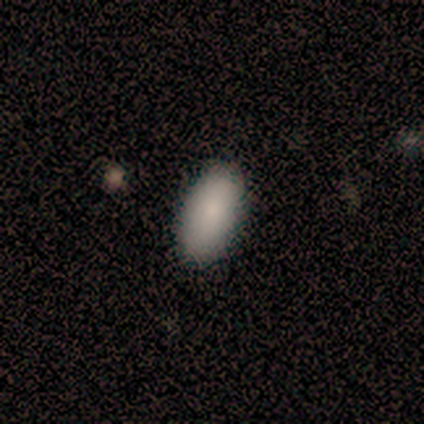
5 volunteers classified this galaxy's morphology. A smooth galaxy with no disk features (80%) that is in between round and cigar-shaped (75%).

Vote fractions:
- Smooth or featured? smooth: 80% / featured or disk: 20% / star or artifact: 0%
- How rounded? in between: 75% / cigar-shaped: 25% / round: 0%
- Merging? none: 100% / minor disturbance: 0% / major disturbance: 0% / merger: 0%